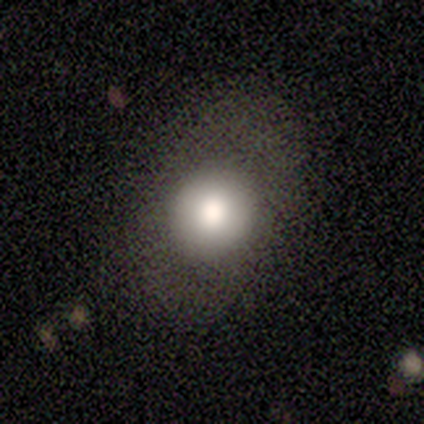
Smooth or featured?
  - smooth: 100% *
  - featured or disk: 0%
  - star or artifact: 0%
How rounded?
  - round: 80% *
  - in between: 20%
  - cigar-shaped: 0%
Merging?
  - none: 100% *
  - minor disturbance: 0%
  - major disturbance: 0%
  - merger: 0%